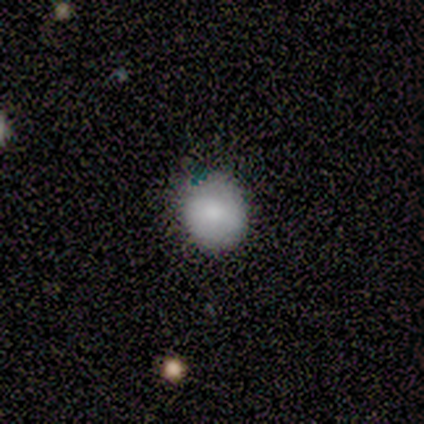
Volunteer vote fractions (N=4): Smooth or featured? 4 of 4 (100%) said smooth. How rounded? 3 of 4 (75%) said round. Merging? 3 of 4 (75%) said none.